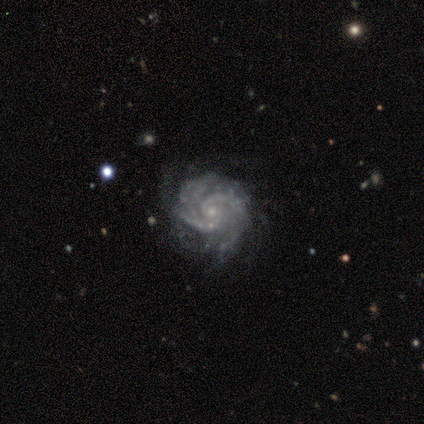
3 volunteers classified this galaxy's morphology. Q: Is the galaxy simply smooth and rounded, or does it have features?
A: featured or disk — 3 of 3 (100%).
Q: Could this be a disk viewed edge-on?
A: no — 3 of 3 (100%).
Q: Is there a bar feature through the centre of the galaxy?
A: no — 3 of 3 (100%).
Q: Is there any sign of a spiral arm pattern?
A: yes — 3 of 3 (100%).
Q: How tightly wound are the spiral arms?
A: tight — 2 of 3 (67%).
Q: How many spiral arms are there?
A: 4 — 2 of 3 (67%).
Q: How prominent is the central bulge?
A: small — 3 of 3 (100%).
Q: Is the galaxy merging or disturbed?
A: none — 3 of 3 (100%).